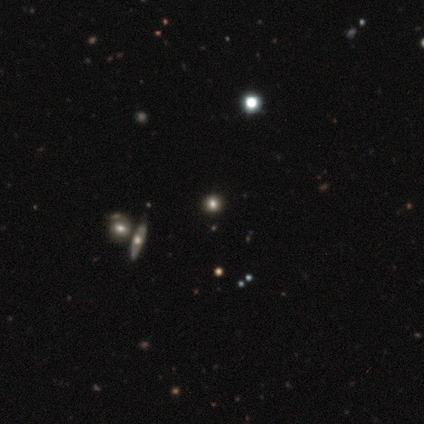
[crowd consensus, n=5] smooth 60%, star or artifact 40%, featured or disk 0%. Down the decision tree: how rounded — round (100%); merging — none (100%).